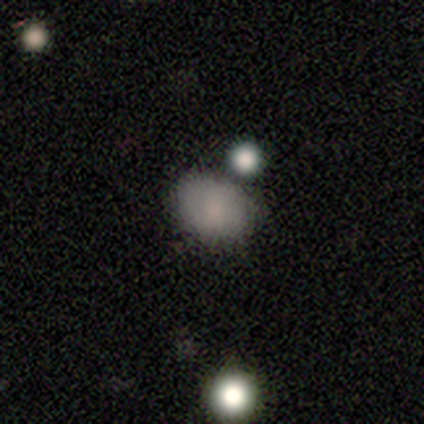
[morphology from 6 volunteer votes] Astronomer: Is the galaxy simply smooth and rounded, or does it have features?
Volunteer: smooth — 83%.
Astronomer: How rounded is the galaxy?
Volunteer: in between — 80%.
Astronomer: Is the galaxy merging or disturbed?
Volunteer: none — 100%.